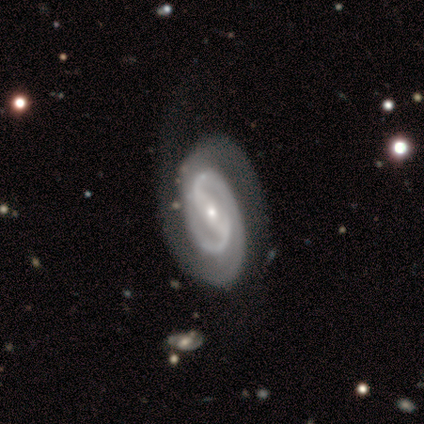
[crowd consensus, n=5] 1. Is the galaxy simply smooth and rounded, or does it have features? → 80% featured or disk, 20% smooth, 0% star or artifact.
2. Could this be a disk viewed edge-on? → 75% no, 25% yes.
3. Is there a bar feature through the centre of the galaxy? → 33% strong (tied), 33% weak (tied), 33% no (tied).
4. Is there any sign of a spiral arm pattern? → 100% yes, 0% no.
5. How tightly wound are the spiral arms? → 33% tight (tied), 33% medium (tied), 33% loose (tied).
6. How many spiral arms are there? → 100% 2, 0% 1, 0% 3, 0% 4, 0% more than 4, 0% can't tell.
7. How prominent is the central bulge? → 67% small, 33% moderate, 0% dominant, 0% large, 0% none.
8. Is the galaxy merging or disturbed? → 60% none, 20% minor disturbance, 20% major disturbance, 0% merger.